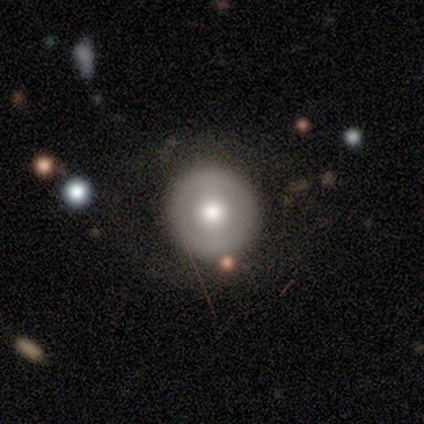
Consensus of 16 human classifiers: Smooth or featured: smooth — 56% (featured or disk — 38%)
How rounded: round — 100%
Merging: none — 93% (minor disturbance — 7%)